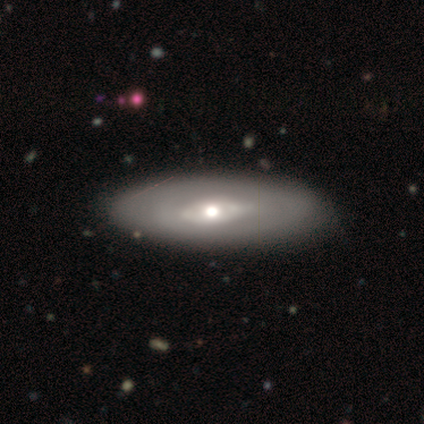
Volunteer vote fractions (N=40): A smooth galaxy with no disk features (60%) that is in between round and cigar-shaped (79%). Merging: none (85%).